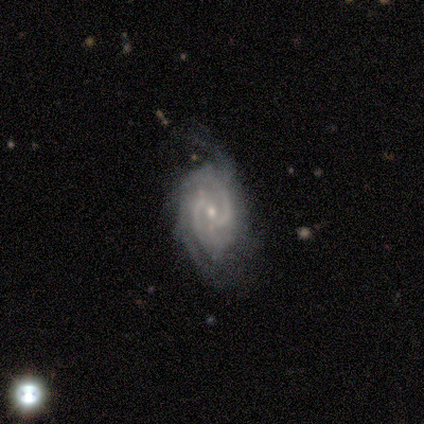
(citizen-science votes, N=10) Overall: featured or disk (100%). Edge-on disk: no (100%). Bar: no (60%; weak 30%). Spiral arms: yes (100%). Spiral arm count: 2 (50%; 4 20%). Spiral winding: tight (40%, tied with medium). Bulge size: small (70%; moderate 30%). Merging: none (40%, tied with minor disturbance).